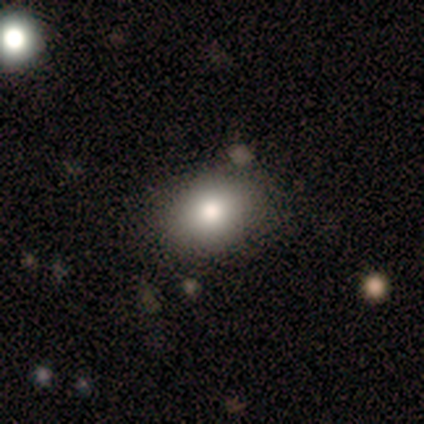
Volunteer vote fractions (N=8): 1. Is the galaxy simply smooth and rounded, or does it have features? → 88% smooth, 12% star or artifact, 0% featured or disk.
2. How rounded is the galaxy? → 57% in between, 43% round, 0% cigar-shaped.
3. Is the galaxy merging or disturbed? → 100% none, 0% minor disturbance, 0% major disturbance, 0% merger.